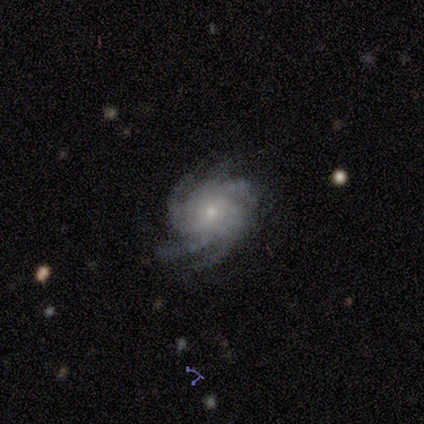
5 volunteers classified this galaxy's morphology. smooth-or-featured: featured or disk: 100% | smooth: 0% | star or artifact: 0%
  disk-edge-on: no: 100% | yes: 0%
    bar: no: 80% | weak: 20% | strong: 0%
    has-spiral-arms: yes: 100% | no: 0%
      spiral-winding: tight: 80% | medium: 20% | loose: 0%
      spiral-arm-count: more than 4: 40% | 3: 20% | 4: 20% | can't tell: 20% | 1: 0% | 2: 0%
    bulge-size: small: 60% | moderate: 40% | dominant: 0% | large: 0% | none: 0%
  merging: none: 80% | major disturbance: 20% | minor disturbance: 0% | merger: 0%